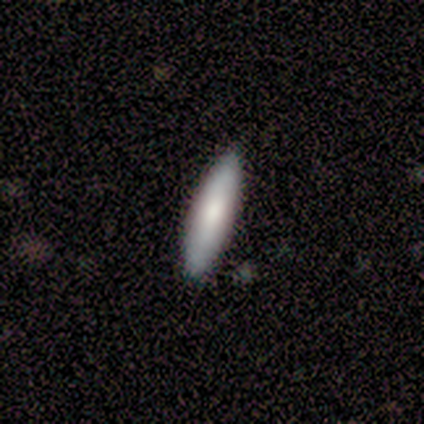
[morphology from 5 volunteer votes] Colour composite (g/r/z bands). It shows a smooth galaxy with no disk features (40%, tied with star or artifact) that is cigar-shaped (100%). Merging: none (67%).